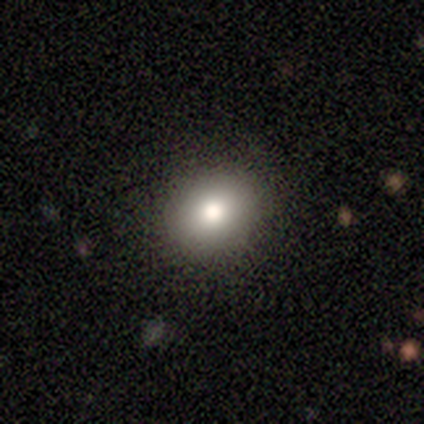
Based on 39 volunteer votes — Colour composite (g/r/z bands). It shows a smooth galaxy with no disk features (87%) that is in between round and cigar-shaped (53%). Merging: none (83%).